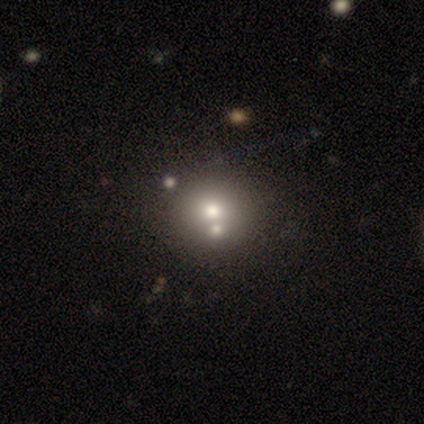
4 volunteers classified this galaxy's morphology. Smooth or featured?
  - smooth: 75% *
  - featured or disk: 25%
  - star or artifact: 0%
How rounded?
  - round: 67% *
  - in between: 33%
  - cigar-shaped: 0%
Merging?
  - none: 75% *
  - major disturbance: 25%
  - minor disturbance: 0%
  - merger: 0%